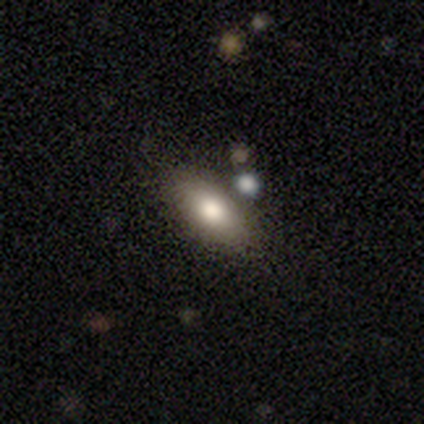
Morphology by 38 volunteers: Smooth or featured?
  - smooth: 71% *
  - featured or disk: 24%
  - star or artifact: 5%
How rounded?
  - in between: 81% *
  - cigar-shaped: 11%
  - round: 7%
Merging?
  - none: 72% *
  - minor disturbance: 19%
  - merger: 6%
  - major disturbance: 3%